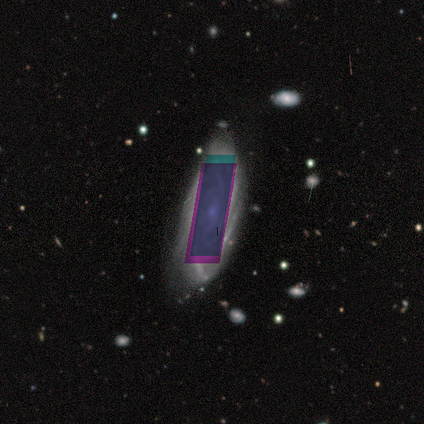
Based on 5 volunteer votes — featured or disk 60%, star or artifact 40%, smooth 0%. Down the decision tree: edge-on disk — no (100%); bar — weak (67%); spiral arms — yes (100%); spiral arm count — can't tell (67%); spiral winding — tight (67%); bulge size — small (67%); merging — none (67%).